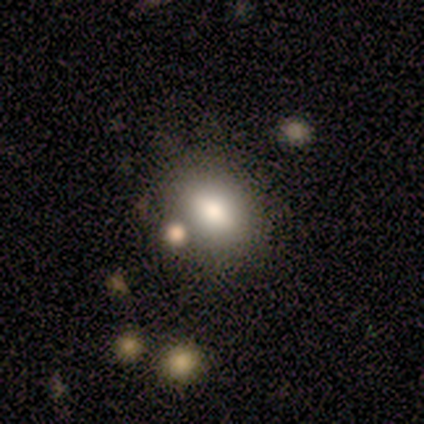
This appears to be a smooth galaxy with no disk features (100%) that is in between round and cigar-shaped (78%). Merging: none (67%).